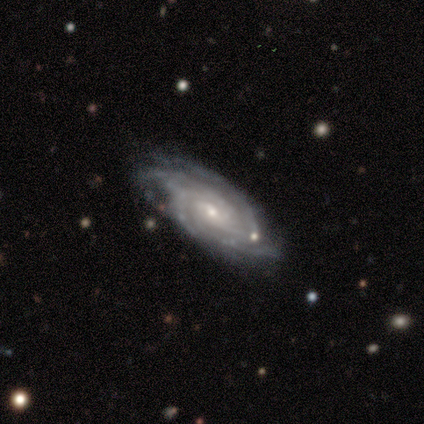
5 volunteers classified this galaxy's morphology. Volunteers were most divided on "bulge size": moderate: 60%, small: 40%, dominant: 0%, large: 0%, none: 0%. More confident: smooth or featured — featured or disk (100%); edge-on disk — no (100%); bar — no (100%); spiral arms — yes (100%); spiral winding — tight (100%); merging — none (80%); spiral arm count — 4 (60%).